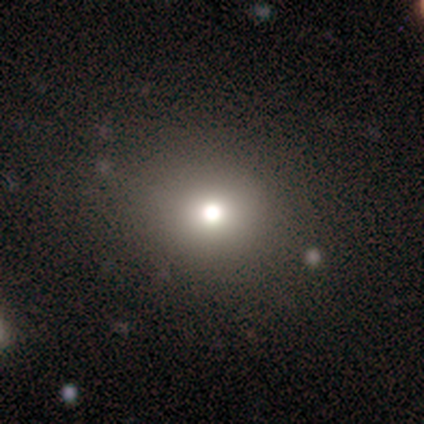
Smooth or featured?
  - smooth: 80% *
  - star or artifact: 20%
  - featured or disk: 0%
How rounded?
  - round: 75% *
  - in between: 25%
  - cigar-shaped: 0%
Merging?
  - none: 75% *
  - minor disturbance: 25%
  - major disturbance: 0%
  - merger: 0%